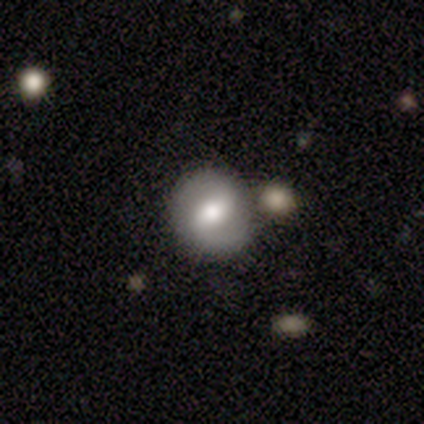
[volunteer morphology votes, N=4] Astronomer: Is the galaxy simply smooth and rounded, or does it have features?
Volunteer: smooth — 75%.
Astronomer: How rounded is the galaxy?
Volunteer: round — 67%.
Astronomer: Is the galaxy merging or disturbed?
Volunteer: none — 50%.